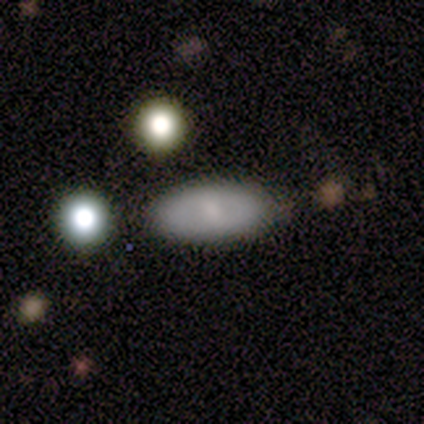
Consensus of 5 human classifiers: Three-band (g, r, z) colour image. It shows a smooth galaxy with no disk features (80%) that is in between round and cigar-shaped (75%). Merging: none (80%).